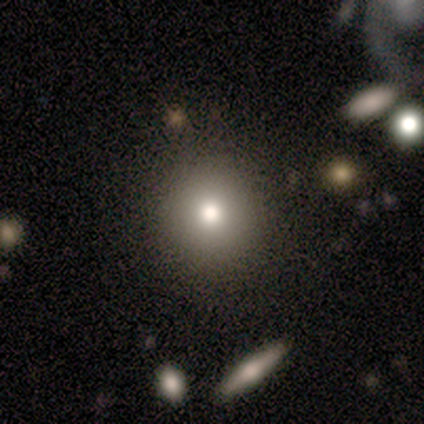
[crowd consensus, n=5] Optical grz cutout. It shows a star or artifact, not a galaxy (80%).